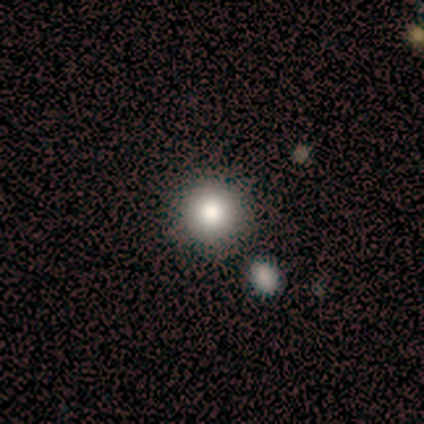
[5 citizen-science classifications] Smooth or featured? smooth (80%)
How rounded? round (100%)
Merging? none (40%, tied with minor disturbance)